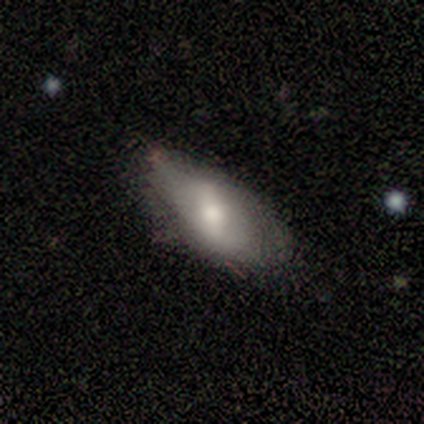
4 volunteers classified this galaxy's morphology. This is likely a smooth galaxy (75%). How rounded: clearly in between (100%). Merging: likely none (75%).